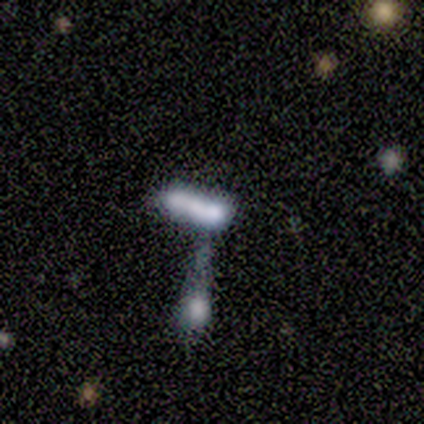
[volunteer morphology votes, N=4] Smooth or featured? smooth (50%)
How rounded? in between (50%, tied with cigar-shaped)
Merging? merger (100%)